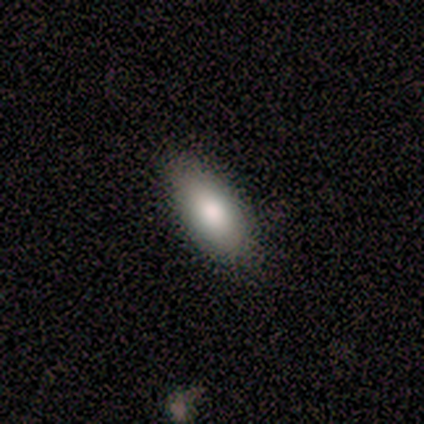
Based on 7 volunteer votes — A smooth galaxy with no disk features (86%) that is in between round and cigar-shaped (100%).

Vote fractions:
- Smooth or featured? smooth: 86% / featured or disk: 14% / star or artifact: 0%
- How rounded? in between: 100% / round: 0% / cigar-shaped: 0%
- Merging? none: 100% / minor disturbance: 0% / major disturbance: 0% / merger: 0%